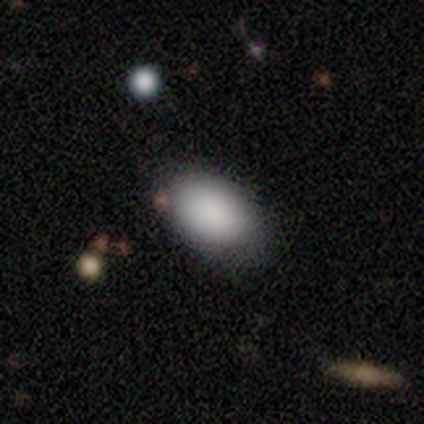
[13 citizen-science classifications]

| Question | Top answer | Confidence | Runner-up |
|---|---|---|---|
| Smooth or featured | smooth | 92% | star or artifact (8%) |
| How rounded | in between | 100% | — |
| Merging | none | 83% | minor disturbance (17%) |